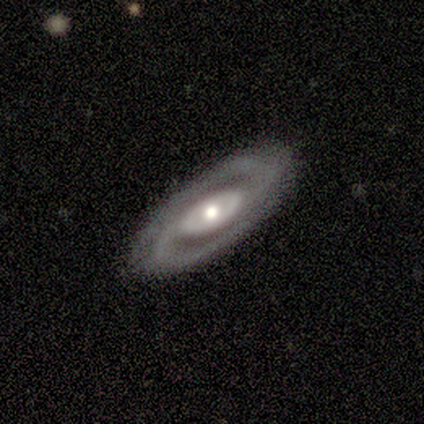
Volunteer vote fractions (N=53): featured or disk 92%, smooth 4%, star or artifact 4%. Down the decision tree: edge-on disk — no (94%); bar — no (63%); spiral arms — yes (96%); spiral arm count — 2 (100%); spiral winding — tight (48%); bulge size — moderate (61%); merging — none (90%).